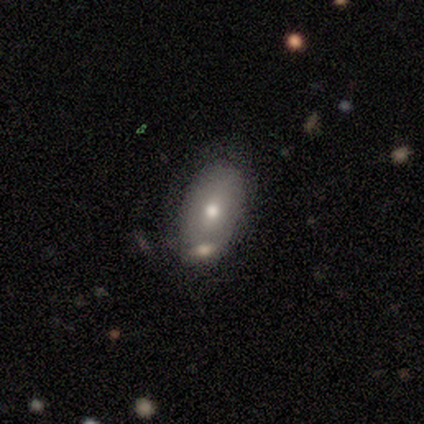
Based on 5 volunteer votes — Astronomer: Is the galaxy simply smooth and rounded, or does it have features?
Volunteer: featured or disk — 60%.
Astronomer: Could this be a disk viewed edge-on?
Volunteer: no — 100%.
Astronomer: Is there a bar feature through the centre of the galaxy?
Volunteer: no — 100%.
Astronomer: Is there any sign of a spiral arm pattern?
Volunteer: no — 100%.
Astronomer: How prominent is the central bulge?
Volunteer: moderate — 100%.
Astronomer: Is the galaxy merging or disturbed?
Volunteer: none — 75%.